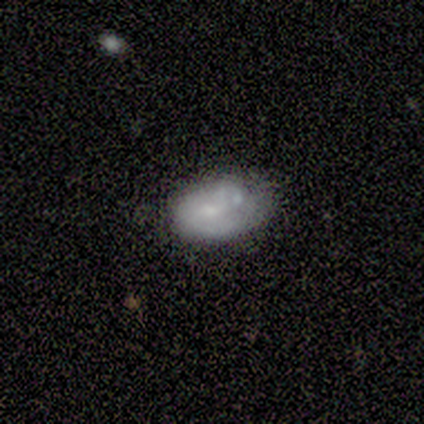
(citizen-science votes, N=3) Q: Smooth or featured?
A: smooth (100%)
Q: How rounded?
A: in between (100%)
Q: Merging?
A: none (67%); runner-up: minor disturbance (33%)